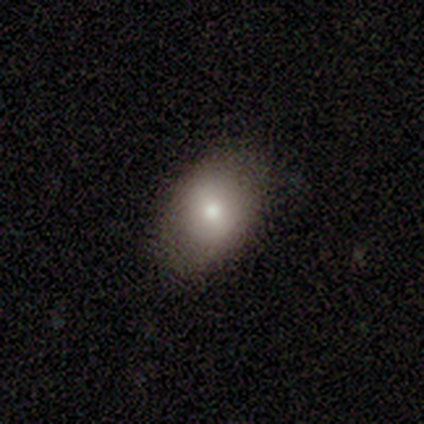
Q: Smooth or featured?
A: smooth (69%); runner-up: featured or disk (23%)
Q: How rounded?
A: in between (78%); runner-up: round (22%)
Q: Merging?
A: none (75%); runner-up: minor disturbance (25%)